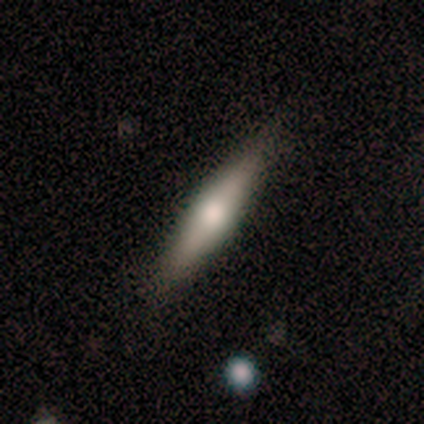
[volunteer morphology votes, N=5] smooth_or_featured: smooth (p=0.60) [alt: featured or disk p=0.20]
how_rounded: cigar-shaped (p=0.67) [alt: in between p=0.33]
merging: none (p=0.75) [alt: minor disturbance p=0.25]